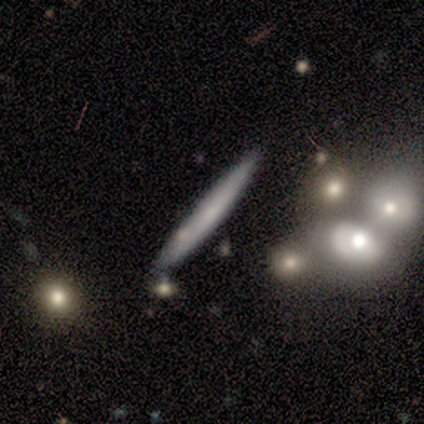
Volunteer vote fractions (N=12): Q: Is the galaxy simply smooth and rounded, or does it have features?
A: smooth — 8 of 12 (67%).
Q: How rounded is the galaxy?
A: cigar-shaped — 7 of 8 (88%).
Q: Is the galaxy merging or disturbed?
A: none — 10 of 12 (83%).